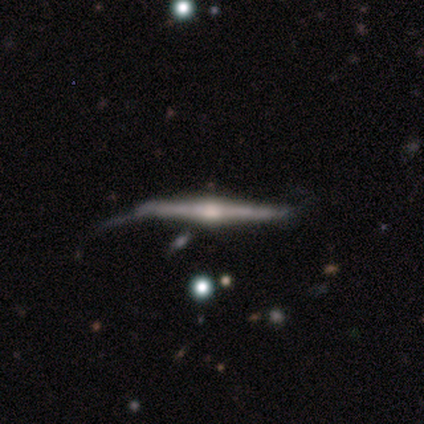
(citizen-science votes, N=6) This appears to be a featured or disk galaxy (100%) viewed edge-on (100%) with a rounded central bulge (100%). Merging: minor disturbance (50%).